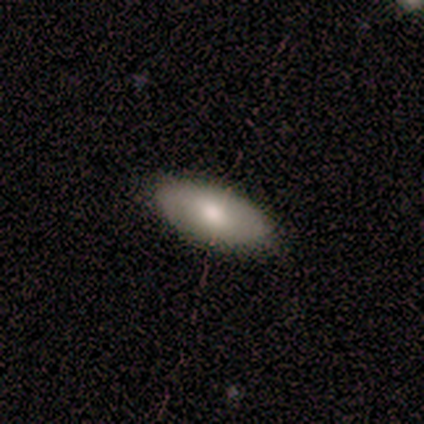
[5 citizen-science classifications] smooth_or_featured: smooth (p=1.00)
how_rounded: in between (p=1.00)
merging: none (p=0.60) [alt: minor disturbance p=0.40]